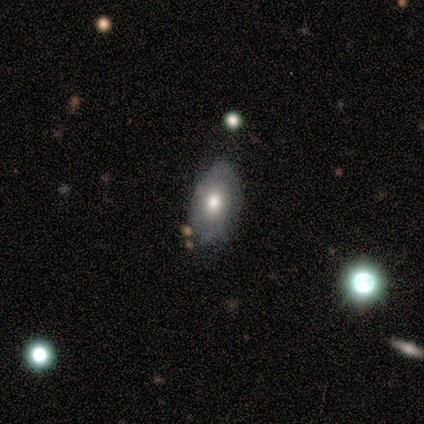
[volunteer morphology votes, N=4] Smooth or featured? 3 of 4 (75%) said smooth. How rounded? 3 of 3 (100%) said in between. Merging? 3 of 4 (75%) said none.